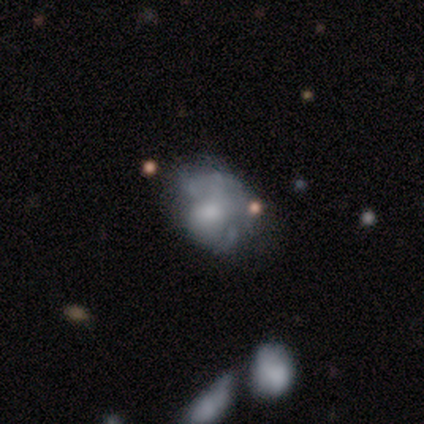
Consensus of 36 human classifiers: This appears to be a featured or disk galaxy (53%) with no bar (74%), no spiral arms (58%) and a moderate central bulge (37%). Merging: minor disturbance (45%).